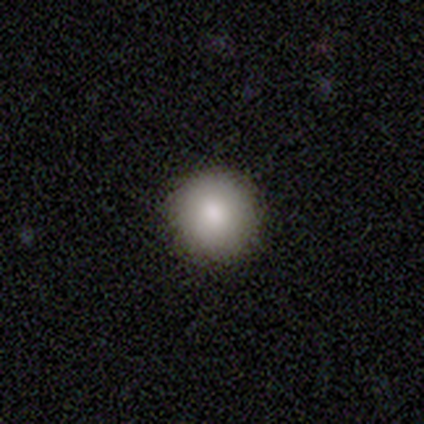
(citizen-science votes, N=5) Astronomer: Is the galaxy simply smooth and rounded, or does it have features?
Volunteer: smooth — 80%.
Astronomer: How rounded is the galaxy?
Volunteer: round — 100%.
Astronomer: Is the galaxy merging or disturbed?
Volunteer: none — 100%.